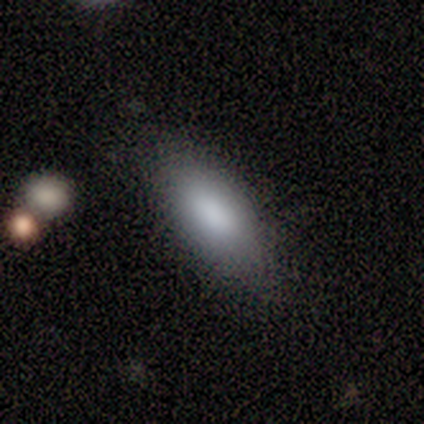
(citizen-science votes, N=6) Smooth or featured: smooth — 100%
How rounded: in between — 83% (cigar-shaped — 17%)
Merging: none — 100%